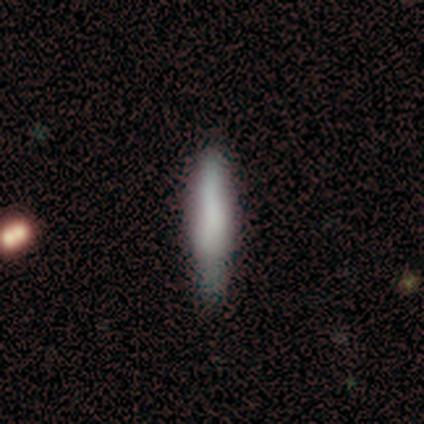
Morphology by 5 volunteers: This is marginally a featured or disk galaxy (40%, tied with star or artifact). It is clearly viewed edge-on (100%). Edge-on bulge: possibly boxy (50%, tied with rounded). Merging: likely none (67%).